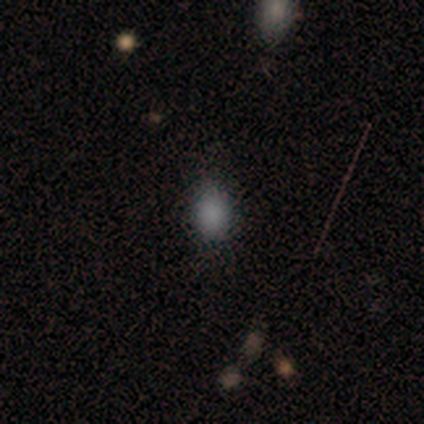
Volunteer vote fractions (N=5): Overall: smooth (100%). How rounded: in between (80%). Merging: minor disturbance (60%; none 40%).